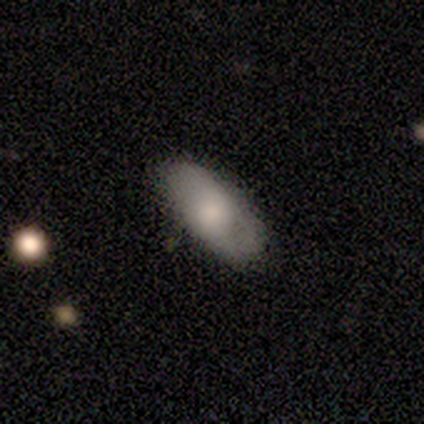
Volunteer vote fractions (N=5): Smooth or featured? 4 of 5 (80%) said smooth. How rounded? 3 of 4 (75%) said in between. Merging? 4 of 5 (80%) said none.